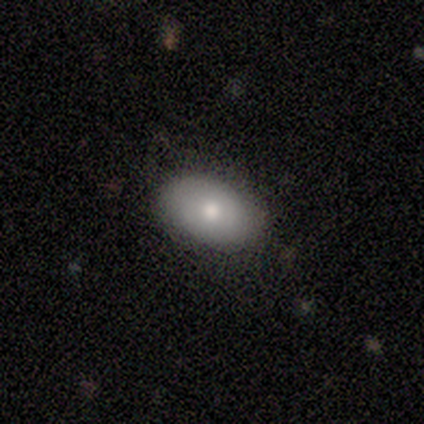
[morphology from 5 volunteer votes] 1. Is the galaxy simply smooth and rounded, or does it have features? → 100% smooth, 0% featured or disk, 0% star or artifact.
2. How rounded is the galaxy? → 100% in between, 0% round, 0% cigar-shaped.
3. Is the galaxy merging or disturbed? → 80% none, 20% major disturbance, 0% minor disturbance, 0% merger.